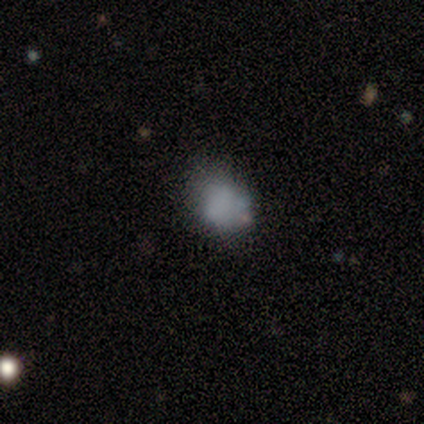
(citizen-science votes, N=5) Volunteers were most divided on "merging": none: 75%, minor disturbance: 25%, major disturbance: 0%, merger: 0%. More confident: how rounded — round (100%); smooth or featured — smooth (80%).